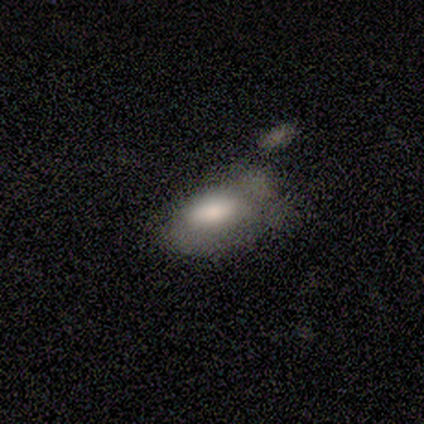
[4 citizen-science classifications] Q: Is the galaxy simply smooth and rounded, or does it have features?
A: smooth — 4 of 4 (100%).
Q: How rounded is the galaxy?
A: in between — 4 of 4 (100%).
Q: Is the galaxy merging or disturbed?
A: minor disturbance — 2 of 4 (50%).